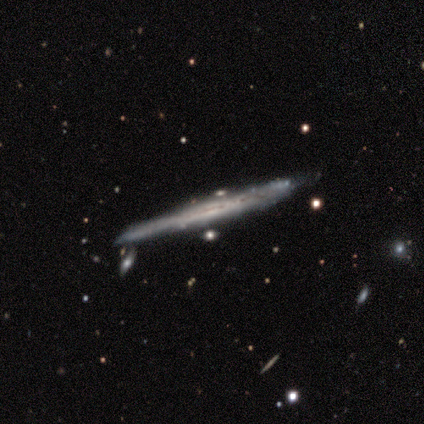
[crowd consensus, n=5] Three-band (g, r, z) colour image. It shows a featured or disk galaxy (60%) viewed edge-on (100%) with a boxy central bulge (33%, tied with none and rounded). Merging: none (75%).